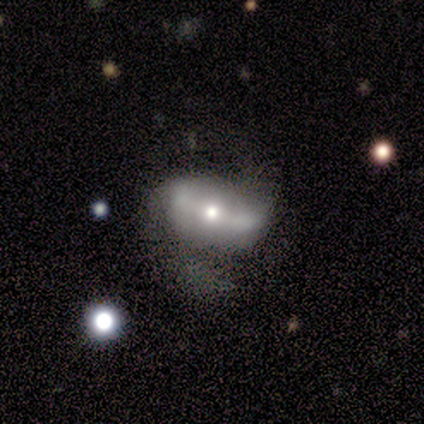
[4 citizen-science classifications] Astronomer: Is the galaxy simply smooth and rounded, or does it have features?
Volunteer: featured or disk — 100%.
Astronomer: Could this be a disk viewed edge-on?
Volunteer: no — 100%.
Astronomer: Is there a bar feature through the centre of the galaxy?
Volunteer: strong — 50%.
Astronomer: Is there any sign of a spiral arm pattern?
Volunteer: yes — 75%.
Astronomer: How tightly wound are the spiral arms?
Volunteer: loose — 67%.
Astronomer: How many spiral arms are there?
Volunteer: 2 — 100%.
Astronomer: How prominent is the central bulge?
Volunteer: small — 50%.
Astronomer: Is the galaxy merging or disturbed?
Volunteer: none — 75%.